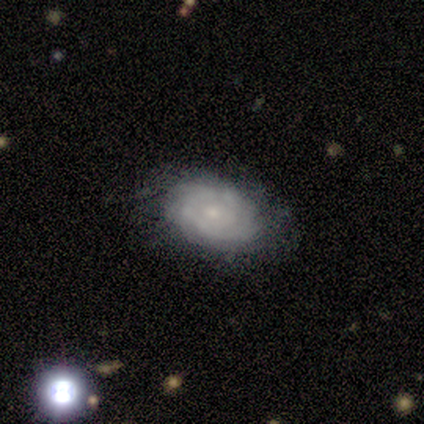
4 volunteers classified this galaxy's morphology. Smooth or featured: smooth — 50% (tied with featured or disk — 50%)
How rounded: in between — 100%
Merging: none — 50% (minor disturbance — 25%)